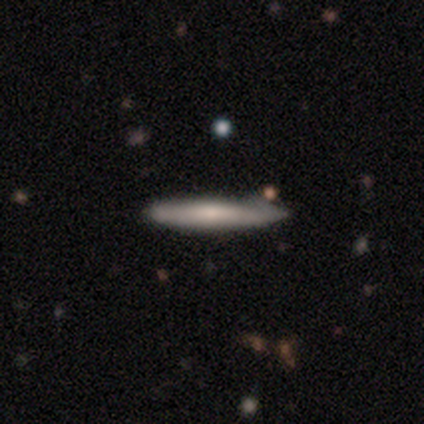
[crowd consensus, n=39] Overall: smooth (54%; featured or disk 46%). How rounded: cigar-shaped (100%). Merging: none (36%, tied with minor disturbance).